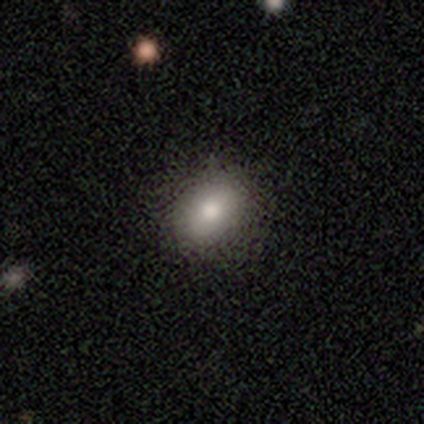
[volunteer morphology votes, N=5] featured or disk 60%, smooth 20%, star or artifact 20%. Down the decision tree: edge-on disk — no (100%); bar — no (100%); spiral arms — no (100%); bulge size — large (33%, tied with moderate and none); merging — none (100%).